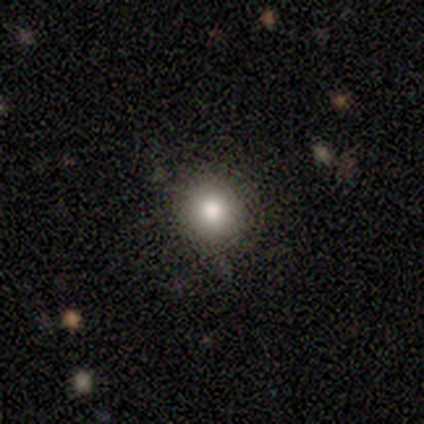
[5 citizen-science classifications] A smooth galaxy with no disk features (60%) that is round (100%).

Vote fractions:
- Smooth or featured? smooth: 60% / featured or disk: 40% / star or artifact: 0%
- How rounded? round: 100% / in between: 0% / cigar-shaped: 0%
- Merging? none: 60% / minor disturbance: 40% / major disturbance: 0% / merger: 0%